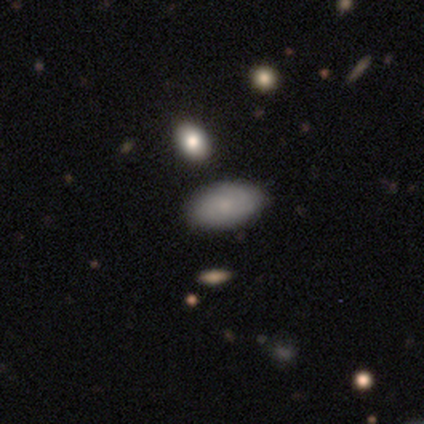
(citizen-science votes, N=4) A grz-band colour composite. It shows a smooth galaxy with no disk features (75%) that is in between round and cigar-shaped (100%). Merging: none (75%).